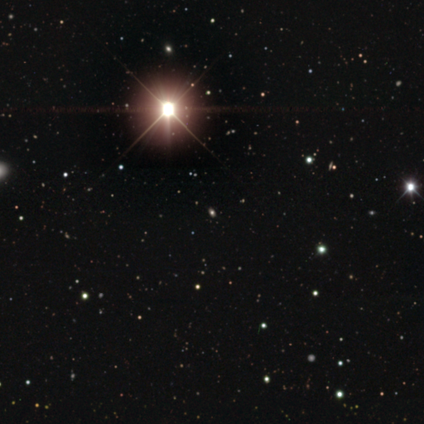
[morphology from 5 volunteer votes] This is clearly a star or artifact rather than a galaxy (80%).